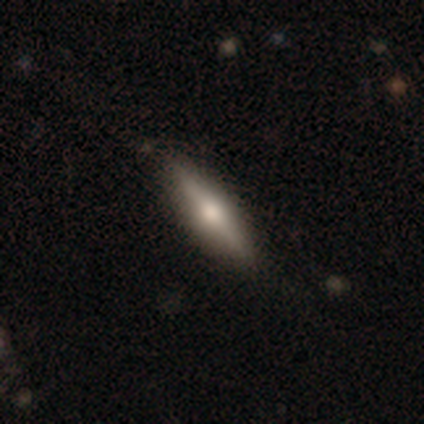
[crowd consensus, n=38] Volunteers were most divided on "smooth or featured": smooth: 50%, featured or disk: 47%, star or artifact: 3%. More confident: merging — none (81%); how rounded — cigar-shaped (79%).